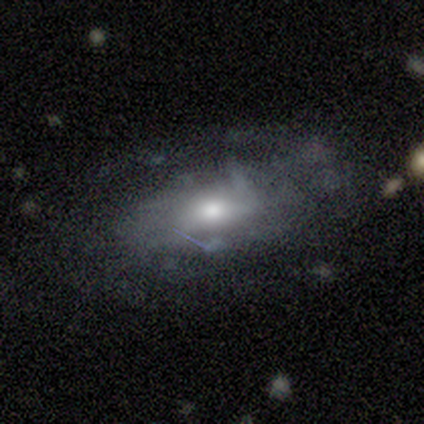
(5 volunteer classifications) A featured or disk galaxy (60%) with no bar (67%), medium (67%) spiral arms (100%) and a large central bulge (33%, tied with moderate and small). Merging: none (80%).